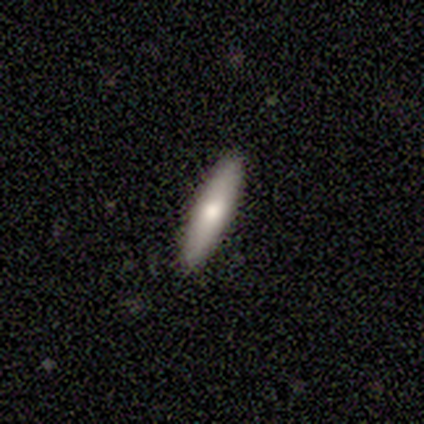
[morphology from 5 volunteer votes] smooth 60%, featured or disk 40%, star or artifact 0%. Down the decision tree: how rounded — cigar-shaped (100%); merging — none (100%).